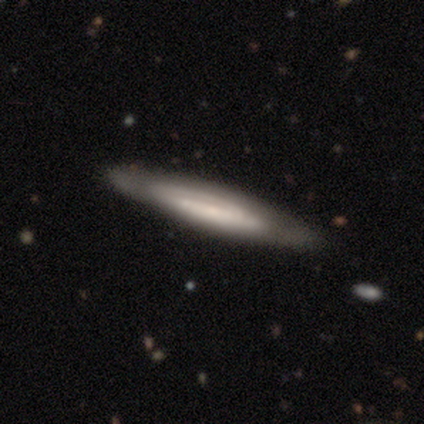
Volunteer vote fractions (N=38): Overall: featured or disk (47%; smooth 45%). Edge-on disk: yes (67%; no 33%). Edge-on bulge: none (92%). Merging: none (80%).